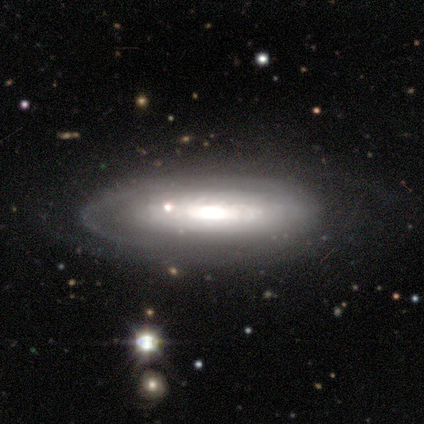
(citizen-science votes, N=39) smooth_or_featured: featured or disk (p=0.77) [alt: smooth p=0.18]
disk_edge_on: no (p=0.73) [alt: yes p=0.27]
bar: no (p=0.50) [alt: weak p=0.36]
has_spiral_arms: no (p=0.73) [alt: yes p=0.27]
bulge_size: moderate (p=0.41) [alt: large p=0.32]
merging: none (p=0.59) [alt: minor disturbance p=0.22]